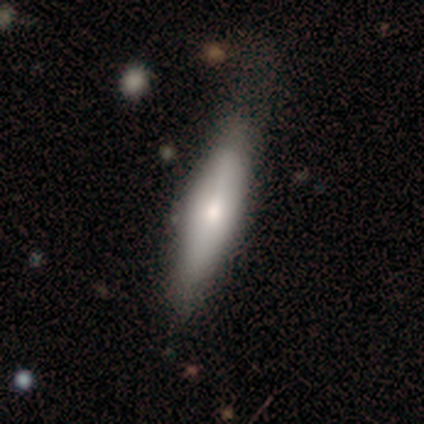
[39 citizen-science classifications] Smooth or featured? 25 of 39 (64%) said smooth. How rounded? 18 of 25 (72%) said cigar-shaped. Merging? 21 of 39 (54%) said none.